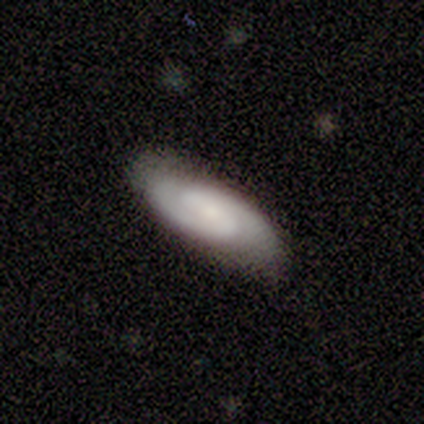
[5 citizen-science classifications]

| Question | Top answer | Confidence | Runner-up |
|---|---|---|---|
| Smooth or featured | featured or disk | 60% | smooth (40%) |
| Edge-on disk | no | 100% | — |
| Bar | weak | 67% | no (33%) |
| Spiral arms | yes | 100% | — |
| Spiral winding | tight | 67% | medium (33%) |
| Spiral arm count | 2 | 100% | — |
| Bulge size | small | 67% | none (33%) |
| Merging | none | 100% | — |